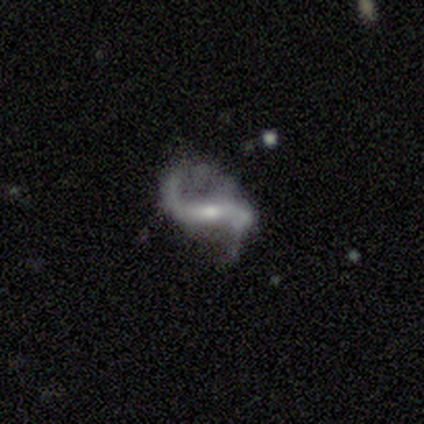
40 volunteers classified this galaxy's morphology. smooth-or-featured: featured or disk: 90% | star or artifact: 8% | smooth: 2%
  disk-edge-on: no: 94% | yes: 6%
    bar: strong: 44% | weak: 41% | no: 15%
    has-spiral-arms: yes: 94% | no: 6%
      spiral-winding: loose: 91% | medium: 9% | tight: 0%
      spiral-arm-count: 2: 88% | 1: 12% | 3: 0% | 4: 0% | more than 4: 0% | can't tell: 0%
    bulge-size: small: 53% | moderate: 38% | large: 6% | none: 3% | dominant: 0%
  merging: none: 57% | minor disturbance: 19% | major disturbance: 19% | merger: 5%